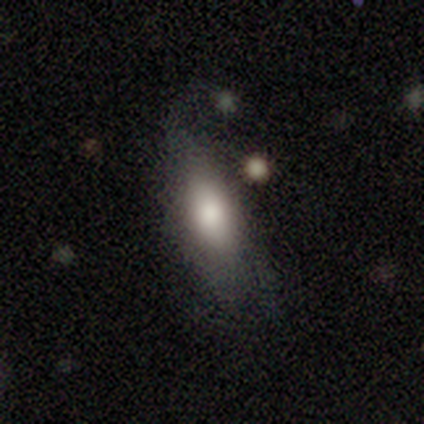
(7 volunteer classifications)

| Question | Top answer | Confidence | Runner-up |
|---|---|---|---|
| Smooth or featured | smooth | 57% | featured or disk (29%) |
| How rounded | in between | 100% | — |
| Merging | none | 67% | minor disturbance (33%) |